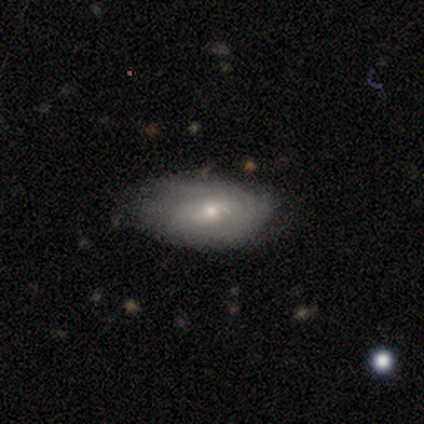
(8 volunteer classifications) Smooth or featured: smooth — 50% (tied with featured or disk — 50%)
How rounded: in between — 100%
Merging: none — 50% (tied with minor disturbance — 50%)